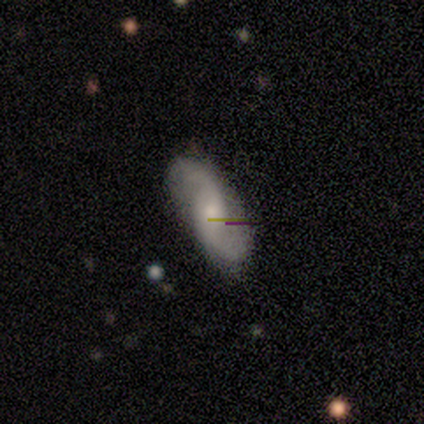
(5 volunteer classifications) A featured or disk galaxy (80%) with a weak bar (50%, tied with no), 2 (100%) loose (100%) spiral arms (100%) and a small central bulge (100%). Merging: none (60%).